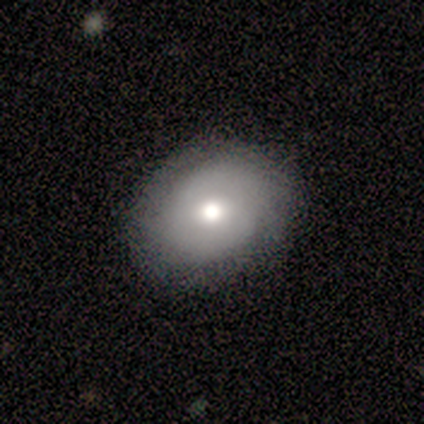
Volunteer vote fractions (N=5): Volunteers were most divided on "smooth or featured": smooth: 60%, featured or disk: 40%, star or artifact: 0%. More confident: how rounded — round (100%); merging — none (60%).